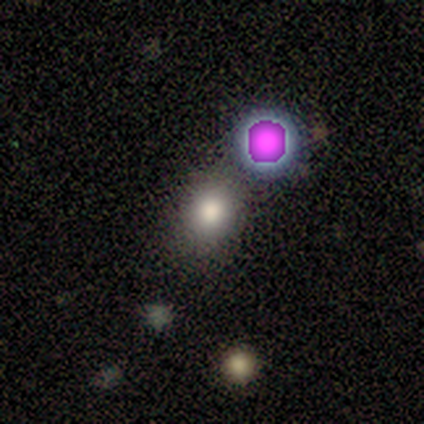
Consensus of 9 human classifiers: Smooth or featured: smooth — 56% (featured or disk — 22%)
How rounded: round — 60% (in between — 40%)
Merging: none — 57% (minor disturbance — 14%)